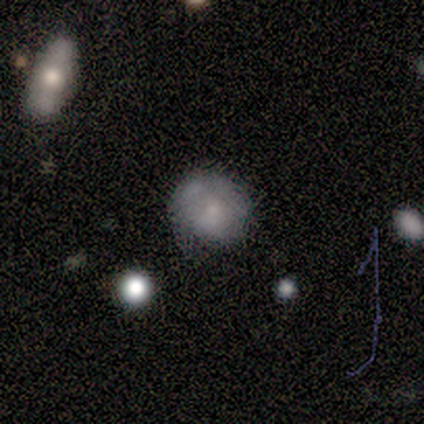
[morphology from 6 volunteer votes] smooth_or_featured: smooth (p=1.00)
how_rounded: round (p=0.83) [alt: in between p=0.17]
merging: minor disturbance (p=0.50) [alt: none p=0.33]